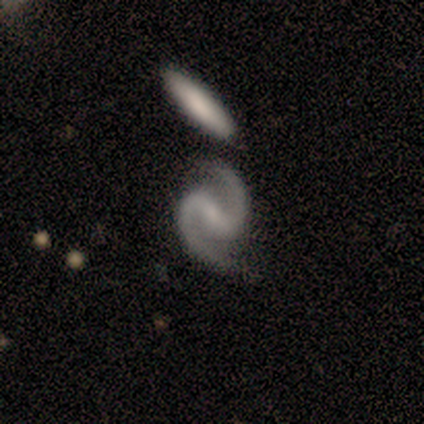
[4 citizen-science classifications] Q: Smooth or featured?
A: featured or disk (100%)
Q: Edge-on disk?
A: no (100%)
Q: Bar?
A: strong (50%); tied with: weak (50%)
Q: Spiral arms?
A: yes (100%)
Q: Spiral winding?
A: medium (100%)
Q: Spiral arm count?
A: 2 (100%)
Q: Bulge size?
A: small (75%); runner-up: none (25%)
Q: Merging?
A: none (75%); runner-up: minor disturbance (25%)